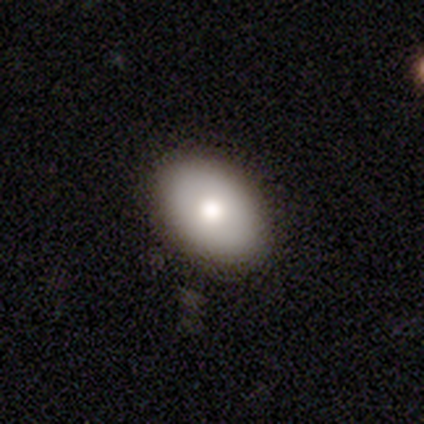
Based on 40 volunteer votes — smooth_or_featured: smooth (p=0.70) [alt: featured or disk p=0.17]
how_rounded: in between (p=0.82) [alt: round p=0.18]
merging: none (p=0.91) [alt: minor disturbance p=0.06]